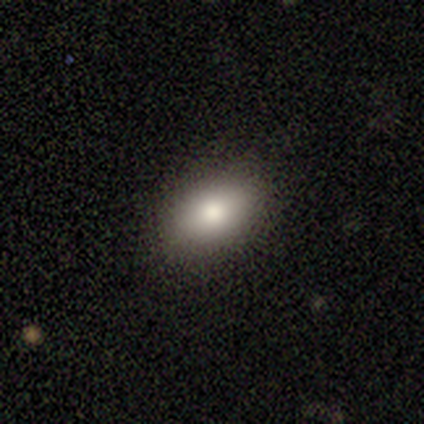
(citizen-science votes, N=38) This is likely a smooth galaxy (71%). How rounded: clearly in between (96%). Merging: likely none (79%).